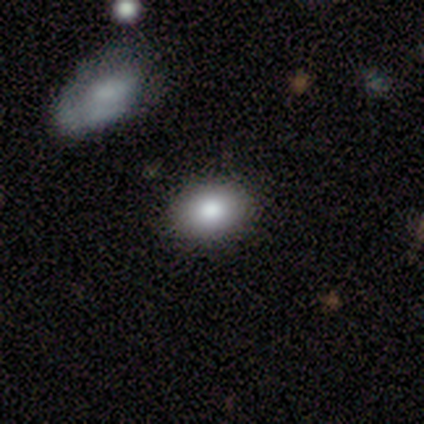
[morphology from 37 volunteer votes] Smooth or featured: smooth — 84% (star or artifact — 11%)
How rounded: in between — 84% (round — 16%)
Merging: none — 85% (merger — 12%)